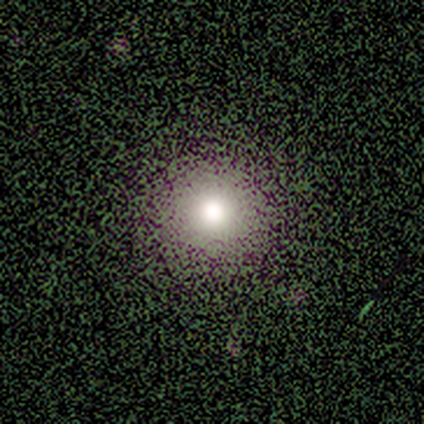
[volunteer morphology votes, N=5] smooth-or-featured: star or artifact: 60% | smooth: 40% | featured or disk: 0%